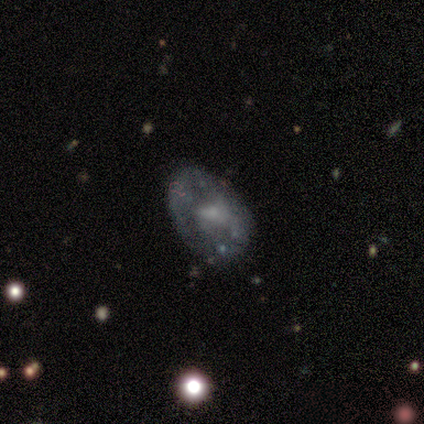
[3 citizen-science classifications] A featured or disk galaxy (100%) with a weak bar (100%), tight (50%, tied with loose) spiral arms (67%) and a small central bulge (67%). Merging: none (67%).